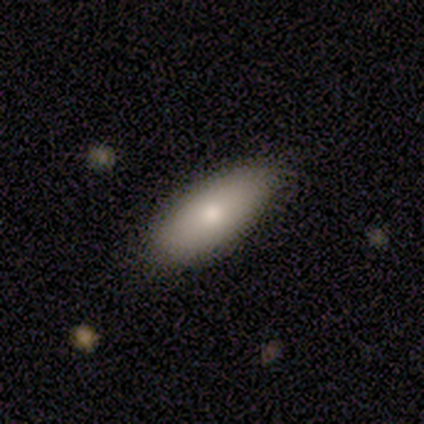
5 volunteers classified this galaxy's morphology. Smooth or featured?
  - smooth: 80% *
  - featured or disk: 20%
  - star or artifact: 0%
How rounded?
  - in between: 100% *
  - round: 0%
  - cigar-shaped: 0%
Merging?
  - none: 100% *
  - minor disturbance: 0%
  - major disturbance: 0%
  - merger: 0%